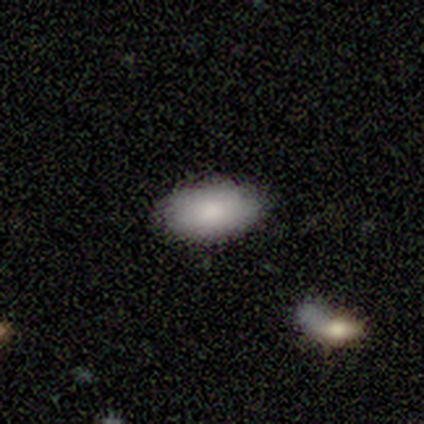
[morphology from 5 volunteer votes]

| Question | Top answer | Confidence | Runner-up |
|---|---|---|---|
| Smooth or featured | smooth | 100% | — |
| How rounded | in between | 80% | round (20%) |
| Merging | none | 100% | — |